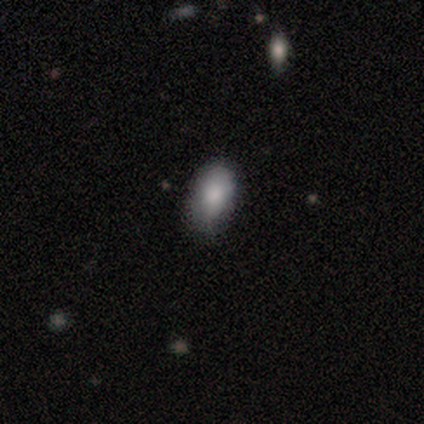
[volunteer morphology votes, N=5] A smooth galaxy with no disk features (100%) that is in between round and cigar-shaped (60%).

Vote fractions:
- Smooth or featured? smooth: 100% / featured or disk: 0% / star or artifact: 0%
- How rounded? in between: 60% / round: 20% / cigar-shaped: 20%
- Merging? none: 100% / minor disturbance: 0% / major disturbance: 0% / merger: 0%